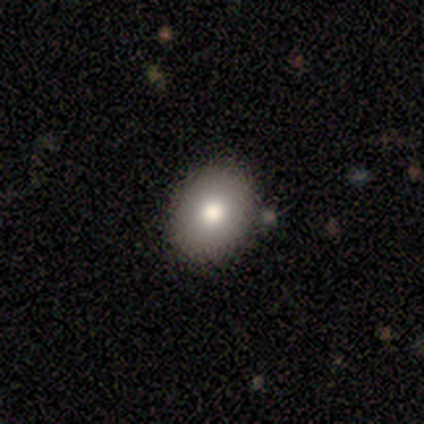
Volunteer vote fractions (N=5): Smooth or featured? smooth (80%)
How rounded? round (50%, tied with in between)
Merging? none (80%)